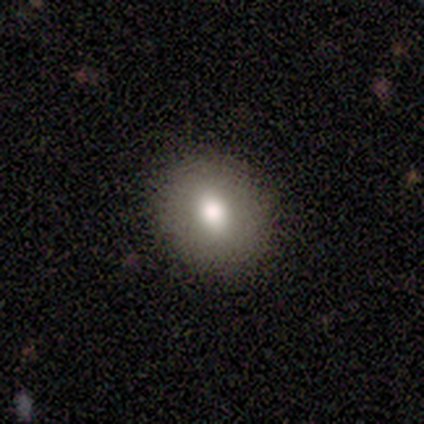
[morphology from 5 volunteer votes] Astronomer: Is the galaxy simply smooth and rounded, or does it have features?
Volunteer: smooth — 100%.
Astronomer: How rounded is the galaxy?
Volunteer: in between — 60% (runner-up: round, 40%).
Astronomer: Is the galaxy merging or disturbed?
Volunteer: none — 80%.